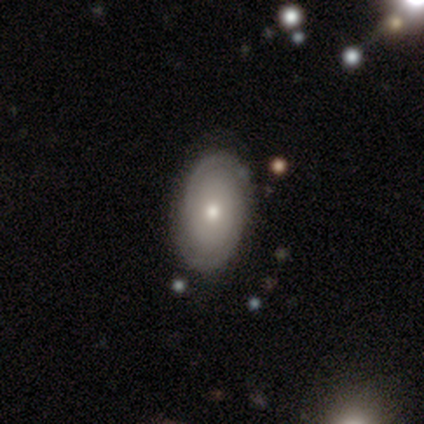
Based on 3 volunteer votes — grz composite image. It shows a featured or disk galaxy (67%) with no bar (100%), 2 (100%) tight (100%) spiral arms (50%, tied with no) and a moderate central bulge (50%, tied with small). Merging: none (67%).